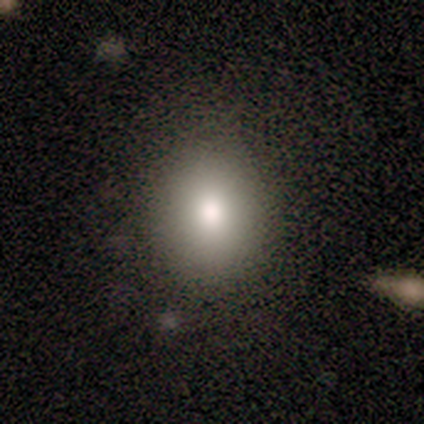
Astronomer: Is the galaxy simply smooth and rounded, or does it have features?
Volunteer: smooth — 100%.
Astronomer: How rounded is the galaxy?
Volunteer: round — 75%.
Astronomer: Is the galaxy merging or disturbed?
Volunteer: none — 75%.